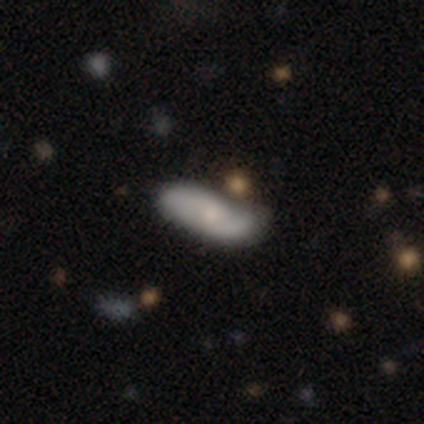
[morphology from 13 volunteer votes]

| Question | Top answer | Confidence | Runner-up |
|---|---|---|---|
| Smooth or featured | featured or disk | 54% | smooth (38%) |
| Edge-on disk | no | 100% | — |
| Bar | no | 71% | weak (29%) |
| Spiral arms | yes | 100% | — |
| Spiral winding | loose | 71% | medium (29%) |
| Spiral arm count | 2 | 100% | — |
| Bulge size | small | 57% | moderate (43%) |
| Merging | none | 67% | minor disturbance (25%) |